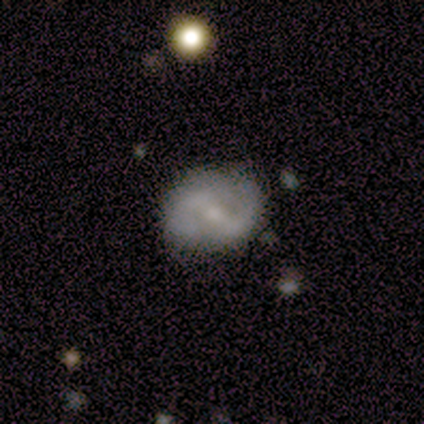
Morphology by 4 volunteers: smooth-or-featured: smooth: 50% (tied) | featured or disk: 50% (tied) | star or artifact: 0%
  how-rounded: round: 100% | in between: 0% | cigar-shaped: 0%
  merging: none: 100% | minor disturbance: 0% | major disturbance: 0% | merger: 0%